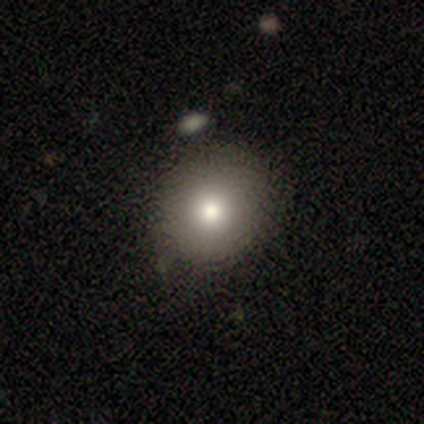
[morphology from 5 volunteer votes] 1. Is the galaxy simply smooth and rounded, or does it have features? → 100% smooth, 0% featured or disk, 0% star or artifact.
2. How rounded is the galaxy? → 80% round, 20% in between, 0% cigar-shaped.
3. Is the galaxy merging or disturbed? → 100% none, 0% minor disturbance, 0% major disturbance, 0% merger.